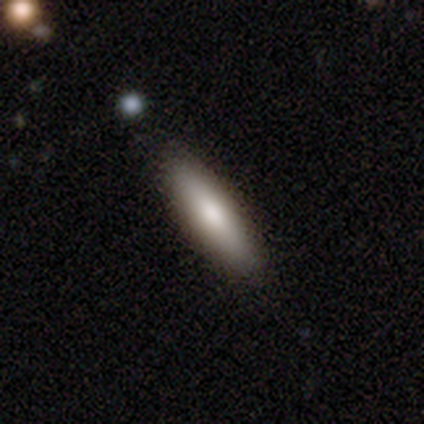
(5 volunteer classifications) smooth 60%, featured or disk 40%, star or artifact 0%. Down the decision tree: how rounded — in between (67%); merging — none (100%).